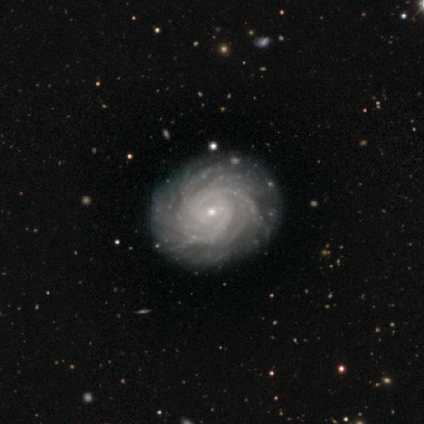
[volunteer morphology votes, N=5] This appears to be a featured or disk galaxy (100%) with no bar (60%), more than 4 (40%) tight (100%) spiral arms (100%) and a small central bulge (100%). Merging: none (80%).